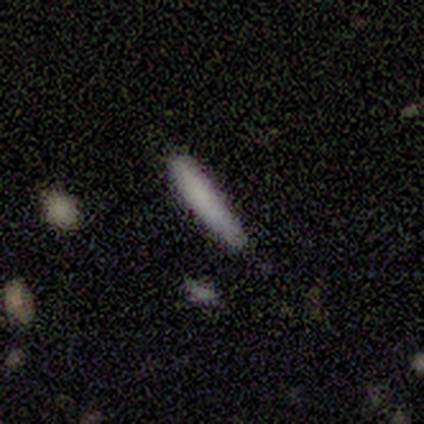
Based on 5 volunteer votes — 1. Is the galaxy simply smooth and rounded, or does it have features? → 80% smooth, 20% featured or disk, 0% star or artifact.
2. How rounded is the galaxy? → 100% cigar-shaped, 0% round, 0% in between.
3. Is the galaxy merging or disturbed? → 100% none, 0% minor disturbance, 0% major disturbance, 0% merger.